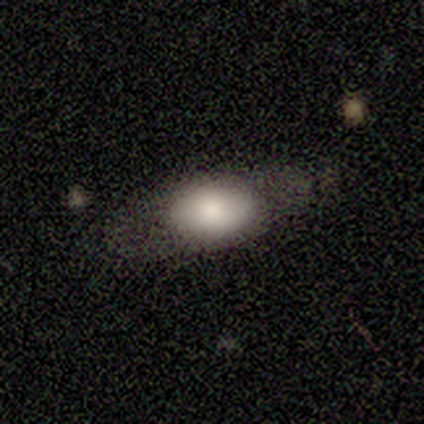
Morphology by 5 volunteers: Q: Smooth or featured?
A: smooth (60%); runner-up: featured or disk (20%)
Q: How rounded?
A: in between (100%)
Q: Merging?
A: none (50%); tied with: minor disturbance (50%)